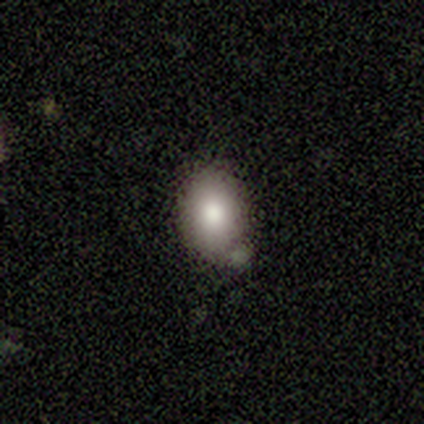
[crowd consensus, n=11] A smooth galaxy with no disk features (82%) that is in between round and cigar-shaped (78%). Merging: none (45%).